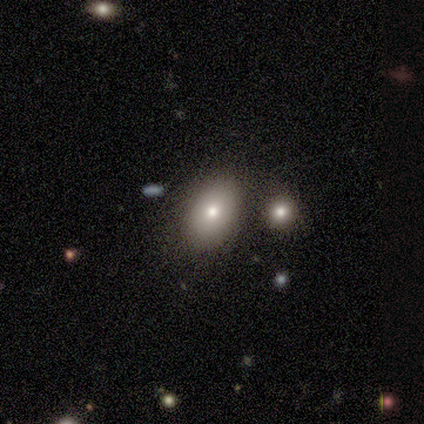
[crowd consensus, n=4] Overall: smooth (75%). How rounded: in between (100%). Merging: none (100%).